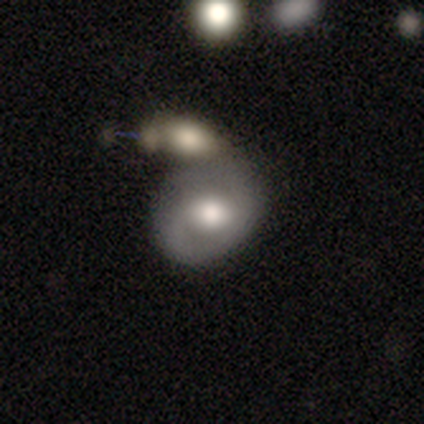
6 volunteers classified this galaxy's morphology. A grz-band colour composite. It shows a smooth galaxy with no disk features (50%, tied with featured or disk) that is round (67%). Merging: merger (50%).